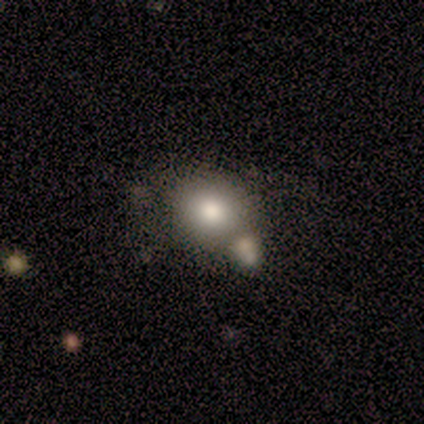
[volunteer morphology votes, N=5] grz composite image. It shows a smooth galaxy with no disk features (100%) that is in between round and cigar-shaped (60%). Merging: merger (60%).